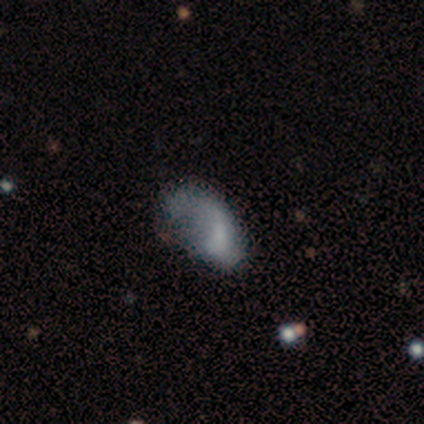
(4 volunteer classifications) Smooth or featured? 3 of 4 (75%) said smooth. How rounded? 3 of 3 (100%) said in between. Merging? 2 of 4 (50%) said minor disturbance.